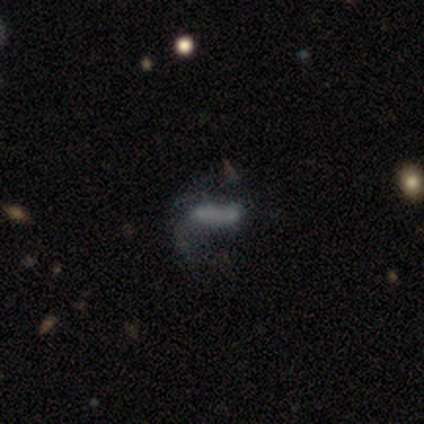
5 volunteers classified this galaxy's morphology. Smooth or featured? featured or disk (60%)
Edge-on disk? no (100%)
Bar? no (67%)
Spiral arms? yes (67%)
Spiral winding? loose (100%)
Spiral arm count? 1 (50%, tied with can't tell)
Bulge size? none (67%)
Merging? none (60%)